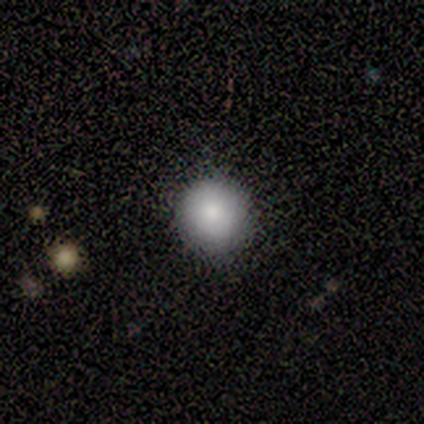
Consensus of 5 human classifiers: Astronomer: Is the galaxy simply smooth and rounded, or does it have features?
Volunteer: smooth — 100%.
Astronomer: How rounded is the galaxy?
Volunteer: round — 80%.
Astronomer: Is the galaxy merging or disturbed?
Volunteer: none — 100%.